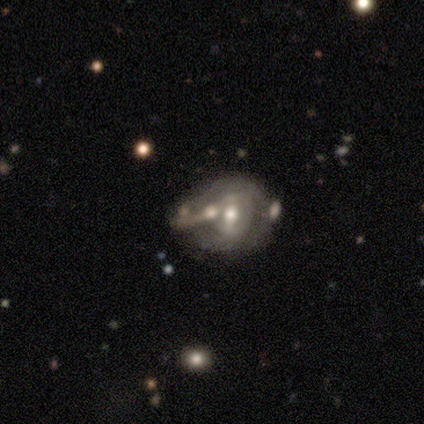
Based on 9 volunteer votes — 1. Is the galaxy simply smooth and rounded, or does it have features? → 67% featured or disk, 33% smooth, 0% star or artifact.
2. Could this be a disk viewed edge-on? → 100% no, 0% yes.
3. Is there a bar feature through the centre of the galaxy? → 50% weak, 33% no, 17% strong.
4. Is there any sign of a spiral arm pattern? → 67% no, 33% yes.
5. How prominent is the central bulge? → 67% moderate, 33% small, 0% dominant, 0% large, 0% none.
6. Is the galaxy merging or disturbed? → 33% none (tied), 33% merger (tied), 22% minor disturbance, 11% major disturbance.